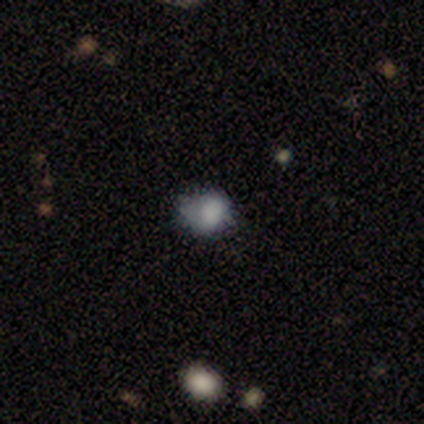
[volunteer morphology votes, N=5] Volunteers were most divided on "how rounded": in between: 60%, round: 40%, cigar-shaped: 0%. More confident: smooth or featured — smooth (100%); merging — minor disturbance (80%).